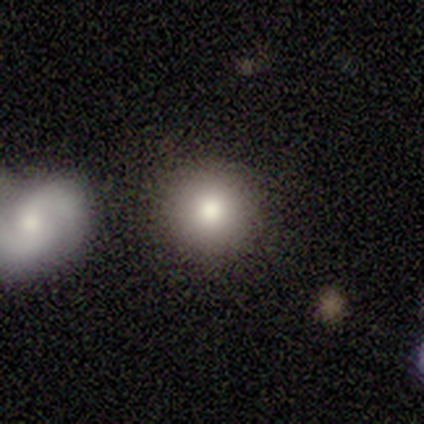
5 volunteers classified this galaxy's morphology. Smooth or featured?
  - smooth: 60% *
  - star or artifact: 40%
  - featured or disk: 0%
How rounded?
  - round: 100% *
  - in between: 0%
  - cigar-shaped: 0%
Merging?
  - none: 67% *
  - minor disturbance: 33%
  - major disturbance: 0%
  - merger: 0%